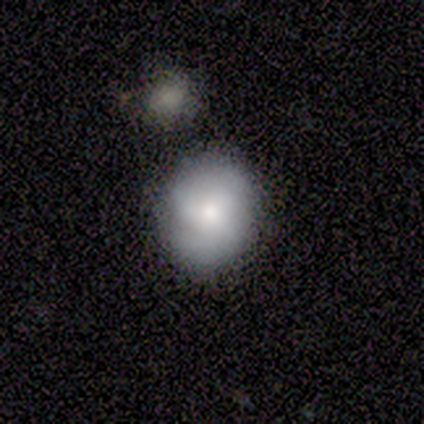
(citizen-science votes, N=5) Overall: smooth (60%; featured or disk 40%). How rounded: in between (67%; round 33%). Merging: none (80%).